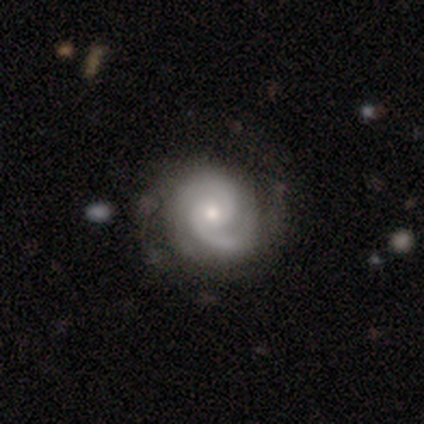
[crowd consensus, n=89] Overall: featured or disk (88%). Edge-on disk: no (97%). Bar: no (74%). Spiral arms: yes (99%). Spiral arm count: 2 (80%). Spiral winding: tight (49%; medium 37%). Bulge size: small (54%; moderate 46%). Merging: none (73%).